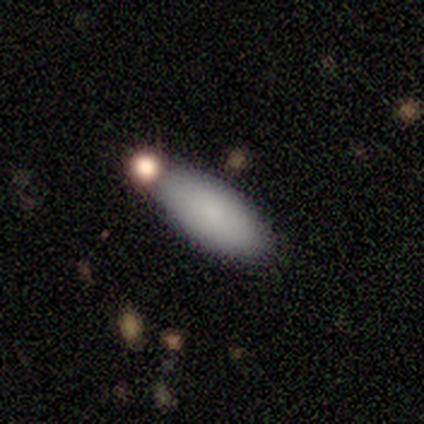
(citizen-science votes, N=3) Smooth or featured: smooth — 100%
How rounded: in between — 100%
Merging: none — 33% (tied with minor disturbance — 33%; major disturbance — 33%)